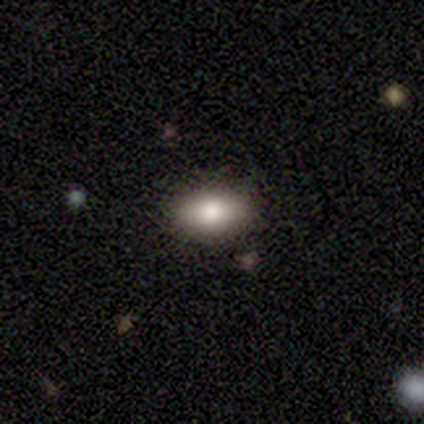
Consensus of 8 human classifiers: smooth 50%, featured or disk 38%, star or artifact 12%. Down the decision tree: how rounded — in between (100%); merging — none (71%).